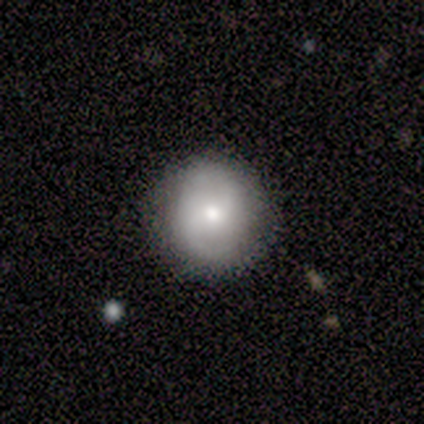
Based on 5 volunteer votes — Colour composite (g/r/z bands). It shows a smooth galaxy with no disk features (80%) that is round (100%). Merging: none (100%).